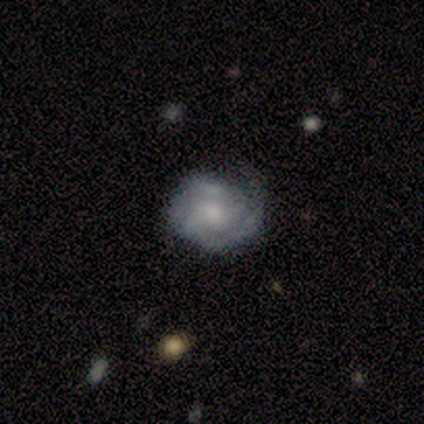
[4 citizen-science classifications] Volunteers were most divided on "spiral arms" (2-way tie): yes: 50%, no: 50%; "spiral arm count" (2-way tie): 2: 50%, can't tell: 50%, 1: 0%, 3: 0%, 4: 0%, more than 4: 0%. More confident: smooth or featured — featured or disk (100%); edge-on disk — no (100%); bar — no (100%); spiral winding — tight (100%); merging — none (75%); bulge size — none (50%).